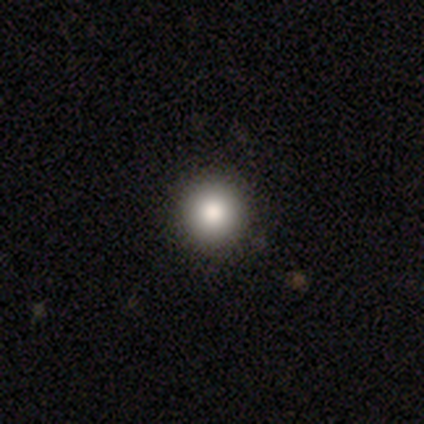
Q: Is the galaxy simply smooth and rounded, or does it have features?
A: smooth — 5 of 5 (100%).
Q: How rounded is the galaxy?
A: round — 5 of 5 (100%).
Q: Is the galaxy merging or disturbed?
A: none — 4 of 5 (80%).